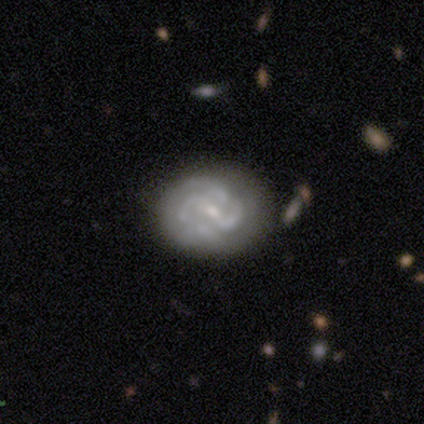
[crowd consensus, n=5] This appears to be a featured or disk galaxy (100%) with a strong bar (80%), 2 (60%) tight (40%, tied with medium) spiral arms (100%) and a small central bulge (60%). Merging: none (80%).